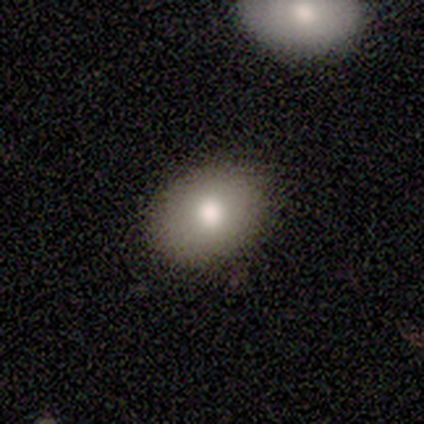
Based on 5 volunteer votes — Smooth or featured? smooth (100%)
How rounded? in between (80%)
Merging? none (100%)